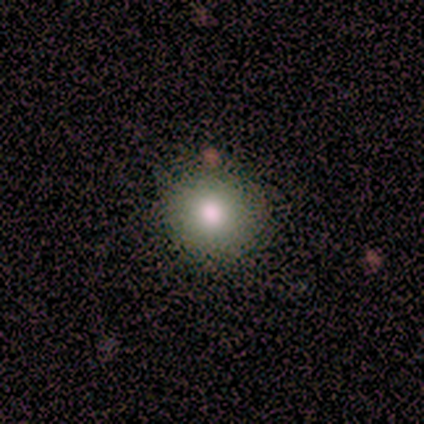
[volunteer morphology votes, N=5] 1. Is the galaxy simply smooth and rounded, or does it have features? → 80% smooth, 20% featured or disk, 0% star or artifact.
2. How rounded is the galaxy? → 100% round, 0% in between, 0% cigar-shaped.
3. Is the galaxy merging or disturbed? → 100% none, 0% minor disturbance, 0% major disturbance, 0% merger.